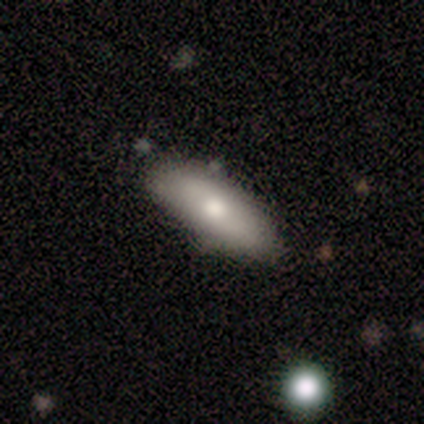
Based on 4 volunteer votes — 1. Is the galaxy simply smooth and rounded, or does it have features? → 50% smooth (tied), 50% featured or disk (tied), 0% star or artifact.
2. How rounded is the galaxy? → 50% in between (tied), 50% cigar-shaped (tied), 0% round.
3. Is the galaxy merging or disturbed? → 75% none, 25% minor disturbance, 0% major disturbance, 0% merger.